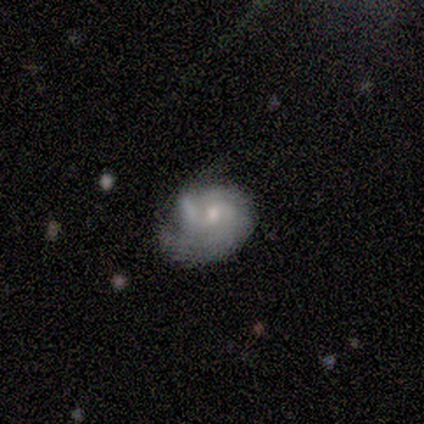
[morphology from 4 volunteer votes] A featured or disk galaxy (100%) with no bar (75%), 2 (67%) tight (100%) spiral arms (75%) and a moderate central bulge (50%, tied with small).

Vote fractions:
- Smooth or featured? featured or disk: 100% / smooth: 0% / star or artifact: 0%
- Edge-on disk? no: 100% / yes: 0%
- Bar? no: 75% / weak: 25% / strong: 0%
- Spiral arms? yes: 75% / no: 25%
- Spiral winding? tight: 100% / medium: 0% / loose: 0%
- Spiral arm count? 2: 67% / 1: 33% / 3: 0% / 4: 0% / more than 4: 0% / can't tell: 0%
- Bulge size? moderate: 50% (tied) / small: 50% (tied) / dominant: 0% / large: 0% / none: 0%
- Merging? major disturbance: 75% / merger: 25% / none: 0% / minor disturbance: 0%